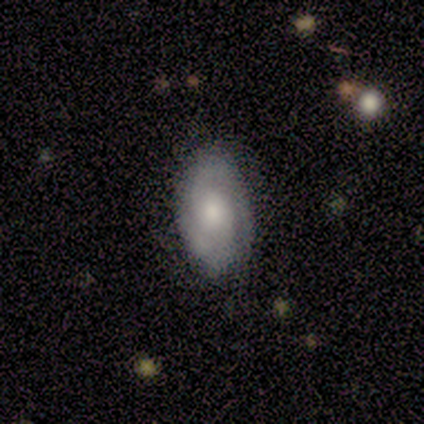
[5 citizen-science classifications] This is likely a smooth galaxy (60%). How rounded: clearly in between (100%). Merging: clearly none (80%).